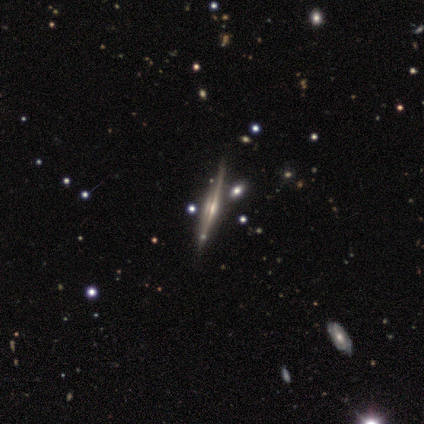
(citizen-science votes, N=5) smooth_or_featured: featured or disk (p=1.00)
disk_edge_on: yes (p=1.00)
edge_on_bulge: rounded (p=0.80) [alt: none p=0.20]
merging: none (p=1.00)